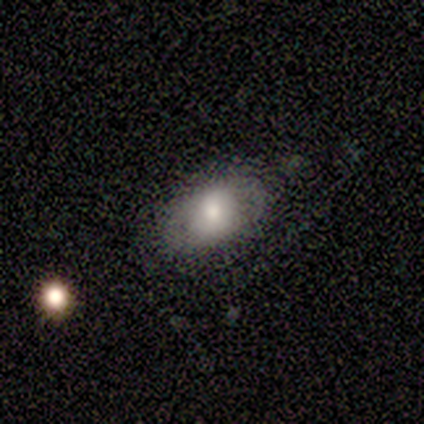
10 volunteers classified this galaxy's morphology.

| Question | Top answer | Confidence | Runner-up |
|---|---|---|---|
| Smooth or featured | smooth | 70% | featured or disk (20%) |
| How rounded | in between | 100% | — |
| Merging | none | 56% | major disturbance (33%) |